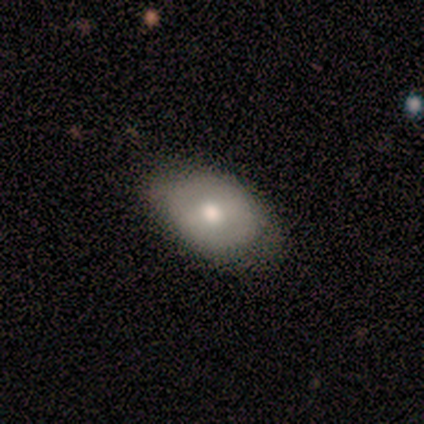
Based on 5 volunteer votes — This is clearly a smooth galaxy (80%). How rounded: likely in between (75%). Merging: likely none (75%).